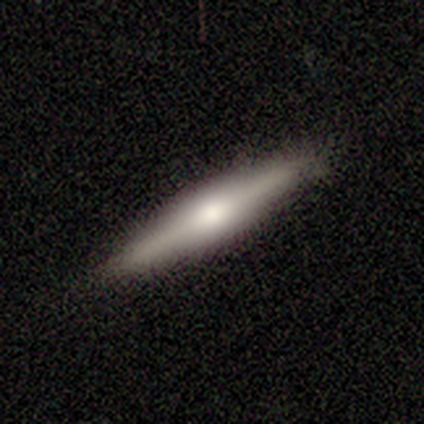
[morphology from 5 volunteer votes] Smooth or featured: smooth — 80% (featured or disk — 20%)
How rounded: cigar-shaped — 100%
Merging: none — 60% (minor disturbance — 40%)